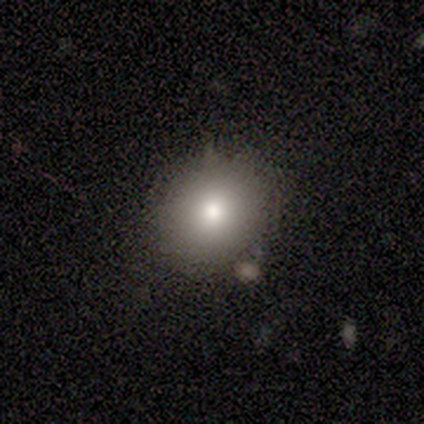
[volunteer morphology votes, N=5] A smooth galaxy with no disk features (80%) that is round (75%).

Vote fractions:
- Smooth or featured? smooth: 80% / featured or disk: 20% / star or artifact: 0%
- How rounded? round: 75% / in between: 25% / cigar-shaped: 0%
- Merging? none: 100% / minor disturbance: 0% / major disturbance: 0% / merger: 0%